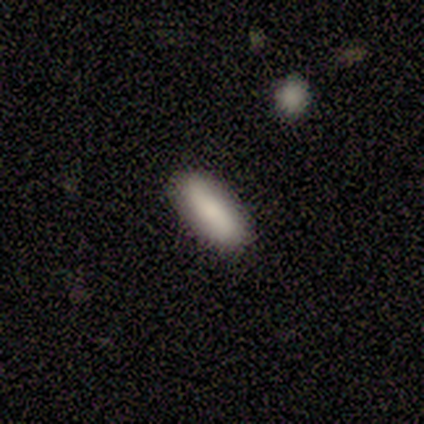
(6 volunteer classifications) Volunteers were most divided on "smooth or featured": smooth: 50%, featured or disk: 33%, star or artifact: 17%. More confident: merging — none (100%); how rounded — cigar-shaped (67%).